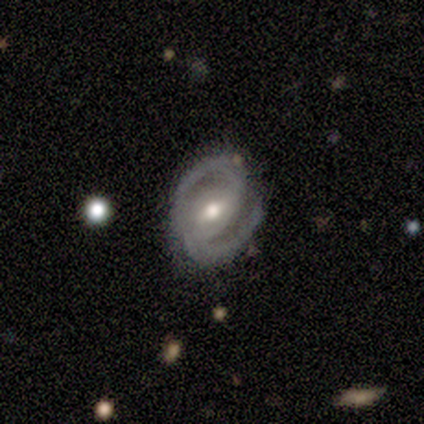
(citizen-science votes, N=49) Smooth or featured? featured or disk (92%)
Edge-on disk? no (98%)
Bar? weak (48%)
Spiral arms? yes (100%)
Spiral winding? medium (61%)
Spiral arm count? 2 (95%)
Bulge size? moderate (68%)
Merging? none (78%)